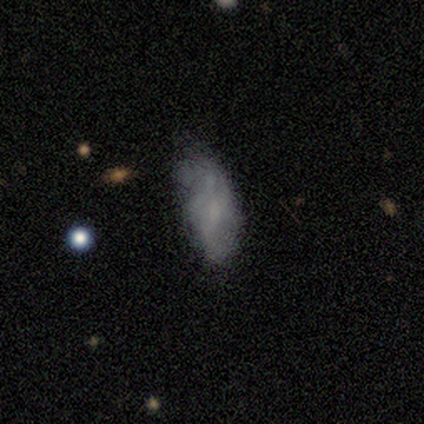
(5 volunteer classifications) smooth 60%, featured or disk 40%, star or artifact 0%. Down the decision tree: how rounded — in between (100%); merging — none (40%, tied with minor disturbance).